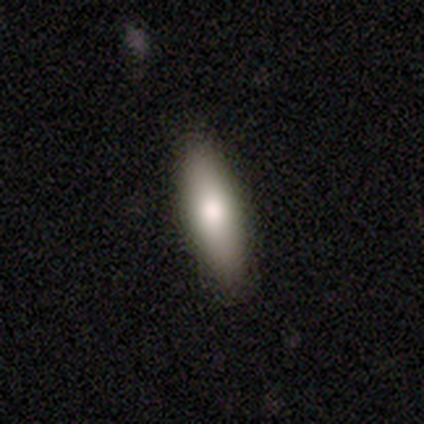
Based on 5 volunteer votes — smooth-or-featured: featured or disk: 60% | smooth: 20% | star or artifact: 20%
  disk-edge-on: no: 67% | yes: 33%
    bar: no: 100% | strong: 0% | weak: 0%
    has-spiral-arms: no: 100% | yes: 0%
    bulge-size: moderate: 100% | dominant: 0% | large: 0% | small: 0% | none: 0%
  merging: none: 75% | minor disturbance: 25% | major disturbance: 0% | merger: 0%